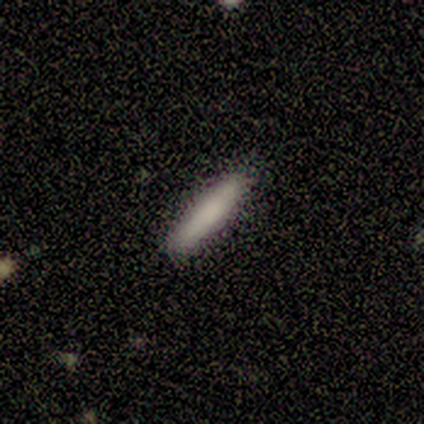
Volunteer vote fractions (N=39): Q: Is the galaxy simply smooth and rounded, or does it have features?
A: smooth — 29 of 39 (74%).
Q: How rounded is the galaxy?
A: cigar-shaped — 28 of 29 (97%).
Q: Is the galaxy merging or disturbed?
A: none — 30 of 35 (86%).